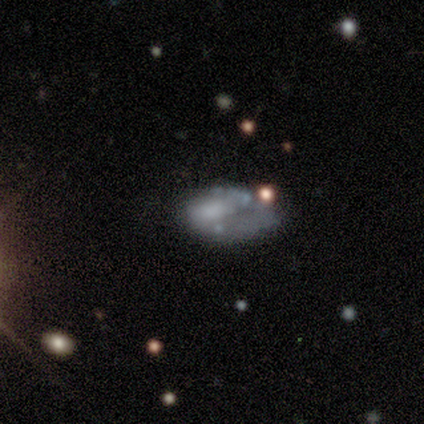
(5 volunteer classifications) Smooth or featured?
  - smooth: 40% * (tied)
  - featured or disk: 40% * (tied)
  - star or artifact: 20%
How rounded?
  - in between: 100% *
  - round: 0%
  - cigar-shaped: 0%
Merging?
  - major disturbance: 50% *
  - none: 25%
  - merger: 25%
  - minor disturbance: 0%